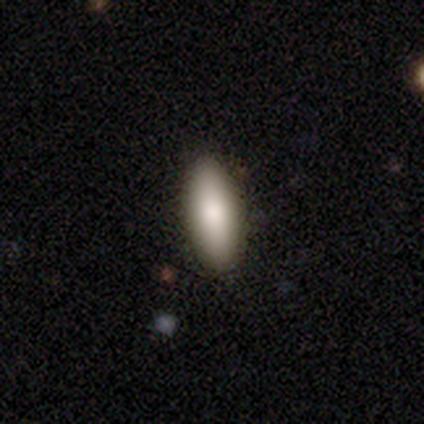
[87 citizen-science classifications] This appears to be a smooth galaxy with no disk features (82%) that is in between round and cigar-shaped (69%). Merging: none (95%).